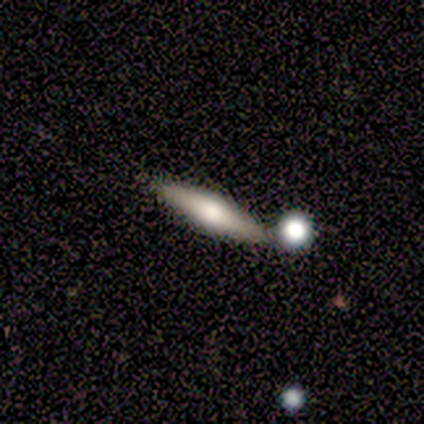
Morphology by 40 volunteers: A featured or disk galaxy (55%) viewed edge-on (91%) with a rounded central bulge (90%).

Vote fractions:
- Smooth or featured? featured or disk: 55% / smooth: 35% / star or artifact: 10%
- Edge-on disk? yes: 91% / no: 9%
- Edge-on bulge? rounded: 90% / boxy: 5% / none: 5%
- Merging? none: 72% / merger: 17% / minor disturbance: 8% / major disturbance: 3%